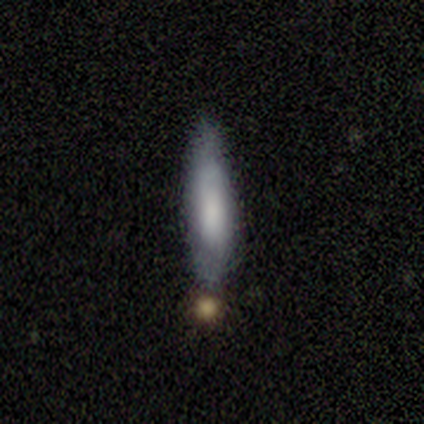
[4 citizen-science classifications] This appears to be a smooth galaxy with no disk features (50%) that is cigar-shaped (100%). Merging: none (67%).